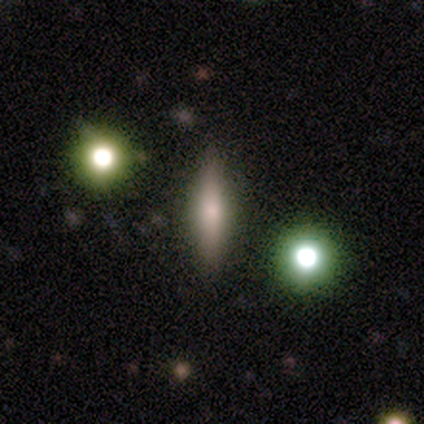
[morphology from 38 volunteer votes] Overall: smooth (50%; featured or disk 39%). How rounded: cigar-shaped (74%). Merging: none (88%).